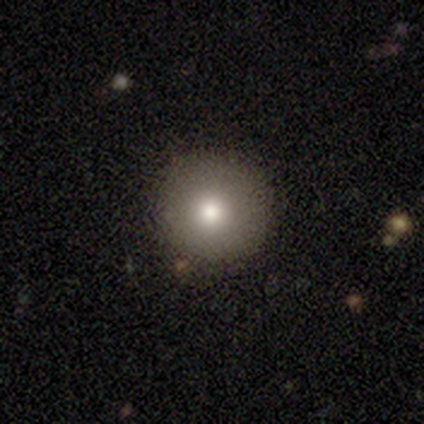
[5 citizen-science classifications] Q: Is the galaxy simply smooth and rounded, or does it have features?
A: smooth — 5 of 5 (100%).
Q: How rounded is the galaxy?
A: round — 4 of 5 (80%).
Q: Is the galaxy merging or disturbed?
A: none — 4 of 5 (80%).